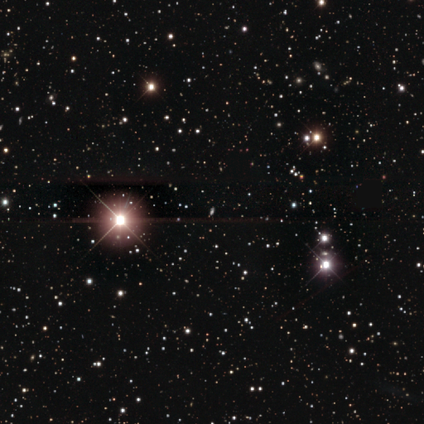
This appears to be a star or artifact, not a galaxy (93%).